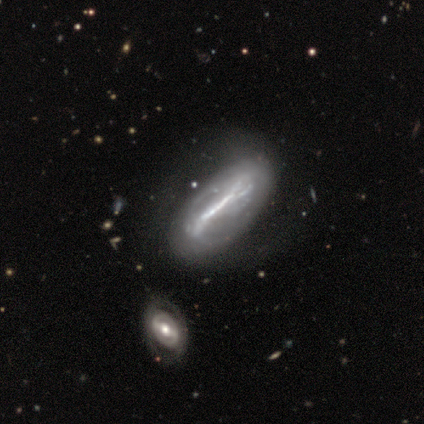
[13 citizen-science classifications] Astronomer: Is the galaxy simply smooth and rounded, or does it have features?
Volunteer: featured or disk — 92%.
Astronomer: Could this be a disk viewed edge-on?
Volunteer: no — 83%.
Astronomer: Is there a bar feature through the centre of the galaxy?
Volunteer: strong — 100%.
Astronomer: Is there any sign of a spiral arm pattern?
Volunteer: yes — 50%, tied with no at 50%.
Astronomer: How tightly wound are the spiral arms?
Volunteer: medium — 60%.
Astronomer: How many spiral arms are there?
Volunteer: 2 — 80%.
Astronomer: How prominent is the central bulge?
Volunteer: none — 60%.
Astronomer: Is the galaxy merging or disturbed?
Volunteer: none — 50%.